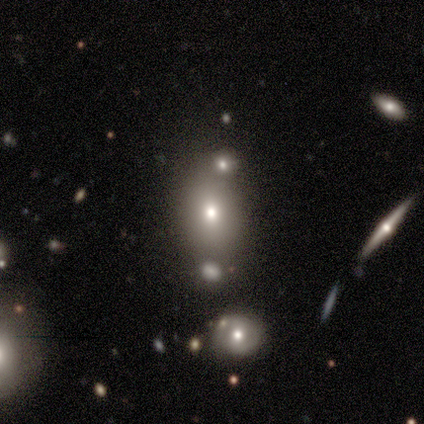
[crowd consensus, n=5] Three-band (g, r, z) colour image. It shows a smooth galaxy with no disk features (80%) that is round (50%, tied with in between). Merging: none (75%).